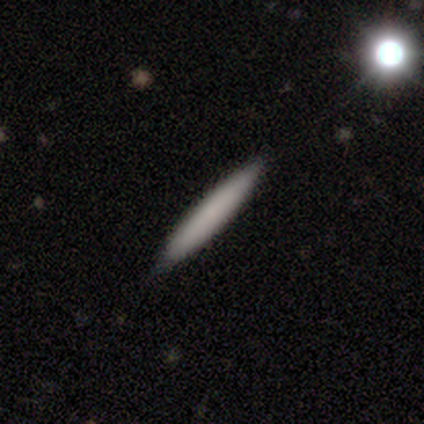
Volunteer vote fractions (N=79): smooth-or-featured: smooth: 73% | featured or disk: 25% | star or artifact: 1%
  how-rounded: cigar-shaped: 98% | in between: 2% | round: 0%
  merging: none: 50% | merger: 3% | minor disturbance: 1% | major disturbance: 0%